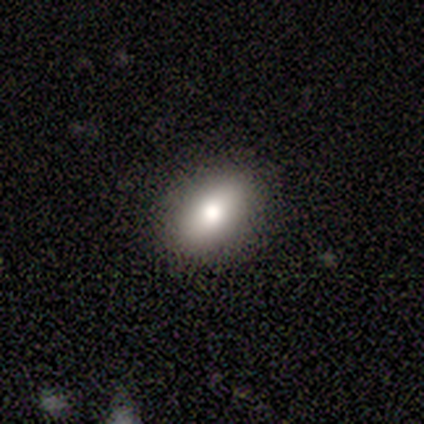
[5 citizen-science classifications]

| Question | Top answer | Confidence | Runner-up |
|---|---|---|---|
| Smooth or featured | featured or disk | 60% | smooth (40%) |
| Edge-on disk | no | 67% | yes (33%) |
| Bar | weak | 50% | tied: no (50%) |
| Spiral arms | no | 100% | — |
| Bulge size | large | 50% | tied: moderate (50%) |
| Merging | none | 60% | minor disturbance (40%) |